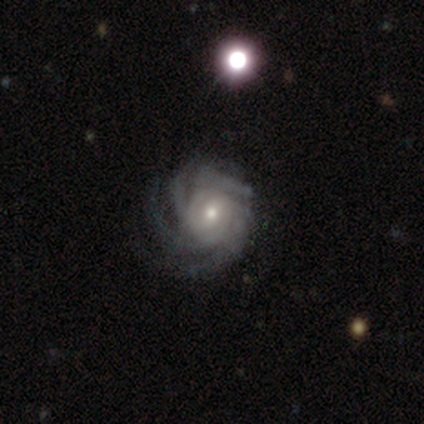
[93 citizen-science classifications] smooth-or-featured: featured or disk: 95% | star or artifact: 4% | smooth: 1%
  disk-edge-on: no: 99% | yes: 1%
    bar: no: 71% | weak: 23% | strong: 6%
    has-spiral-arms: yes: 99% | no: 1%
      spiral-winding: tight: 69% | medium: 21% | loose: 10%
      spiral-arm-count: 4: 48% | can't tell: 21% | more than 4: 20% | 3: 8% | 2: 2% | 1: 1%
    bulge-size: small: 53% | moderate: 41% | large: 3% | none: 2% | dominant: 0%
  merging: none: 72% | minor disturbance: 15% | major disturbance: 13% | merger: 0%